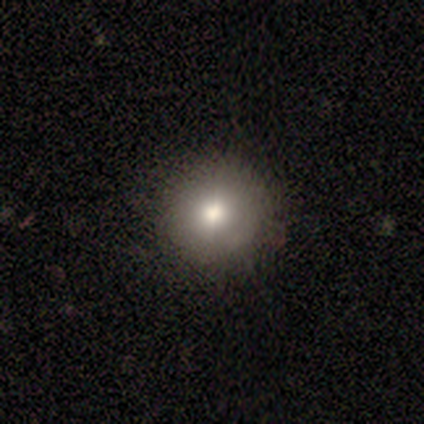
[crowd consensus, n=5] Smooth or featured?
  - smooth: 80% *
  - star or artifact: 20%
  - featured or disk: 0%
How rounded?
  - round: 100% *
  - in between: 0%
  - cigar-shaped: 0%
Merging?
  - none: 100% *
  - minor disturbance: 0%
  - major disturbance: 0%
  - merger: 0%